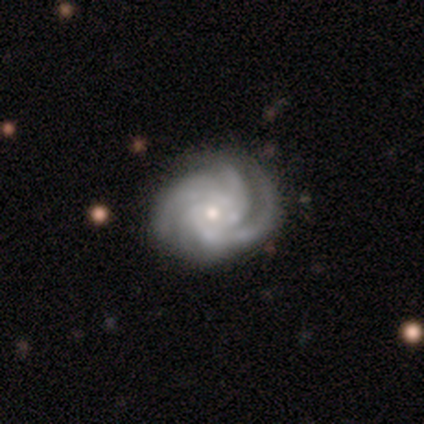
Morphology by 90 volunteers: A featured or disk galaxy (93%) with no bar (67%), 3 (38%, tied with 4) tight (74%) spiral arms (100%) and a small central bulge (66%).

Vote fractions:
- Smooth or featured? featured or disk: 93% / smooth: 4% / star or artifact: 2%
- Edge-on disk? no: 98% / yes: 2%
- Bar? no: 67% / weak: 24% / strong: 9%
- Spiral arms? yes: 100% / no: 0%
- Spiral winding? tight: 74% / medium: 22% / loose: 4%
- Spiral arm count? 3: 38% (tied) / 4: 38% (tied) / can't tell: 12% / 2: 6% / more than 4: 6% / 1: 0%
- Bulge size? small: 66% / moderate: 30% / large: 4% / dominant: 0% / none: 0%
- Merging? none: 76% / minor disturbance: 16% / major disturbance: 6% / merger: 2%